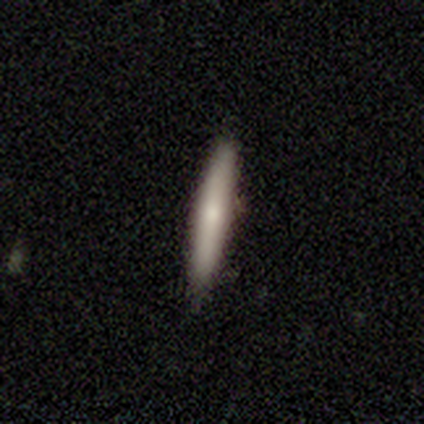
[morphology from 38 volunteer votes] Overall: smooth (74%). How rounded: cigar-shaped (93%). Merging: none (81%).